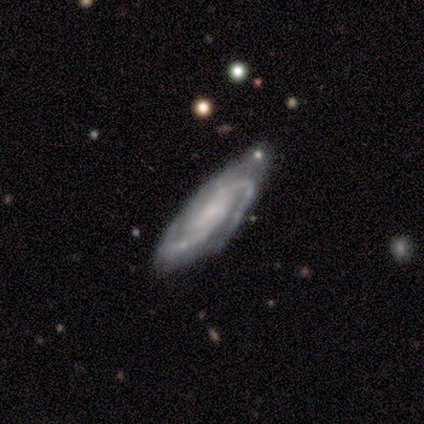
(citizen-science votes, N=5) featured or disk 100%, smooth 0%, star or artifact 0%. Down the decision tree: edge-on disk — no (80%); bar — no (50%); spiral arms — yes (100%); spiral arm count — can't tell (50%); spiral winding — tight (50%, tied with medium); bulge size — small (75%); merging — none (100%).